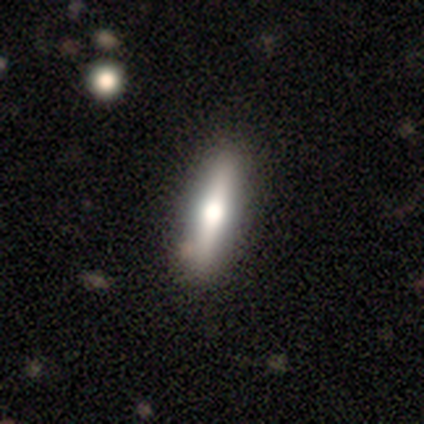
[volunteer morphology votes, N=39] featured or disk 51%, smooth 38%, star or artifact 10%. Down the decision tree: edge-on disk — yes (100%); edge-on bulge — rounded (85%); merging — none (86%).